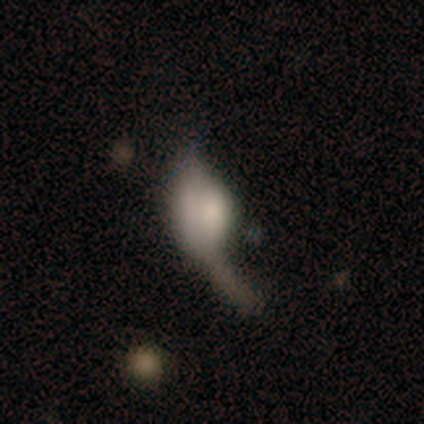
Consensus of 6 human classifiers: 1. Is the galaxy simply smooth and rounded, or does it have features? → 83% featured or disk, 17% star or artifact, 0% smooth.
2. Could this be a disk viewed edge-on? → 60% no, 40% yes.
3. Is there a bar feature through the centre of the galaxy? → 67% no, 33% strong, 0% weak.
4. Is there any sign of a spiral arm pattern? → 100% no, 0% yes.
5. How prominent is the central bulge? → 67% large, 33% dominant, 0% moderate, 0% small, 0% none.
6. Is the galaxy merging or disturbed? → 60% none, 20% minor disturbance, 20% major disturbance, 0% merger.